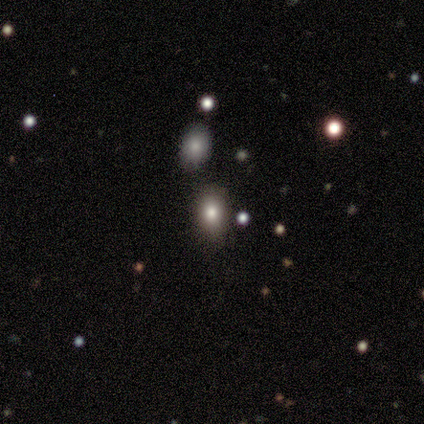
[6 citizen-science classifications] Smooth or featured?
  - smooth: 50% *
  - star or artifact: 33%
  - featured or disk: 17%
How rounded?
  - in between: 100% *
  - round: 0%
  - cigar-shaped: 0%
Merging?
  - none: 75% *
  - minor disturbance: 25%
  - major disturbance: 0%
  - merger: 0%